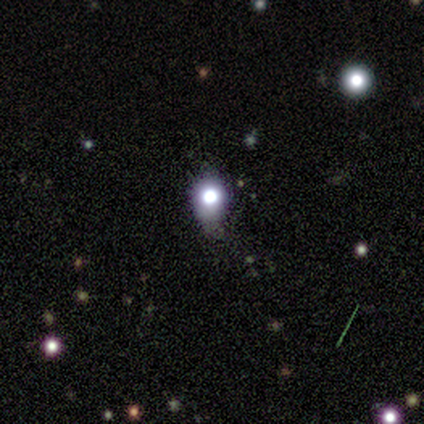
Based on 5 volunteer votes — Smooth or featured: featured or disk — 40% (tied with star or artifact — 40%)
Edge-on disk: yes — 50% (tied with no — 50%)
Edge-on bulge: boxy — 100%
Merging: none — 33% (tied with minor disturbance — 33%; merger — 33%)